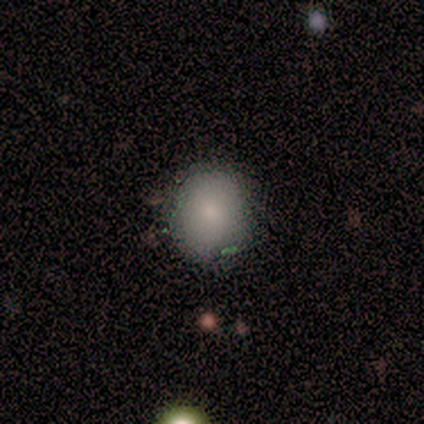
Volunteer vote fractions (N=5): Overall: smooth (60%; star or artifact 40%). How rounded: round (67%; in between 33%). Merging: none (67%; minor disturbance 33%).